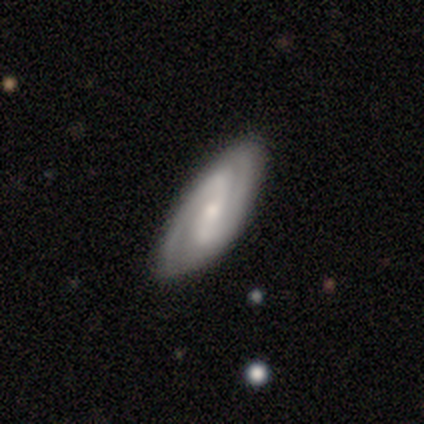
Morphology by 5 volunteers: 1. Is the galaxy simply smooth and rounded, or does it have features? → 100% featured or disk, 0% smooth, 0% star or artifact.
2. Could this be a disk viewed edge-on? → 100% no, 0% yes.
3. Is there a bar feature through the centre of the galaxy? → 60% no, 40% strong, 0% weak.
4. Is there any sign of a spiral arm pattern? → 100% yes, 0% no.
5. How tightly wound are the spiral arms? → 60% medium, 40% tight, 0% loose.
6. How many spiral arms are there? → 100% 2, 0% 1, 0% 3, 0% 4, 0% more than 4, 0% can't tell.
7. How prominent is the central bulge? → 80% moderate, 20% small, 0% dominant, 0% large, 0% none.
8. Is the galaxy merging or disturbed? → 60% none, 40% minor disturbance, 0% major disturbance, 0% merger.